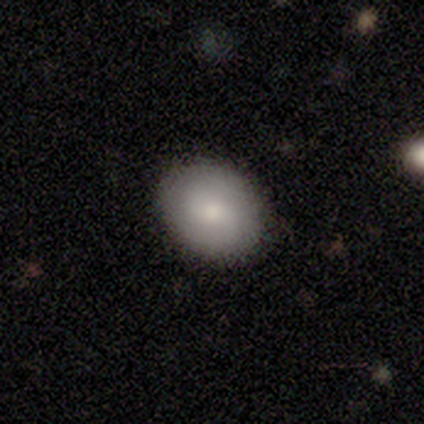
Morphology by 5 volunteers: Smooth or featured? smooth (80%)
How rounded? round (50%, tied with in between)
Merging? none (100%)